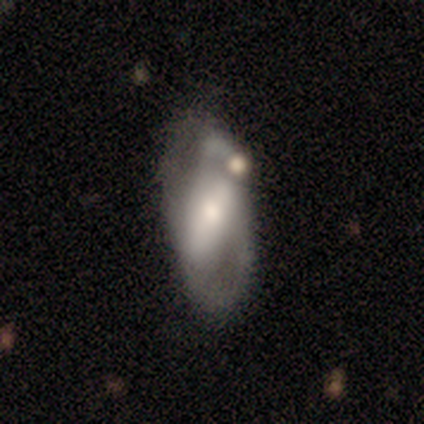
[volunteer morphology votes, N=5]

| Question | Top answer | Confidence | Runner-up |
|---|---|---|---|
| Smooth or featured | smooth | 60% | featured or disk (40%) |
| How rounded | in between | 100% | — |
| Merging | minor disturbance | 60% | none (20%) |